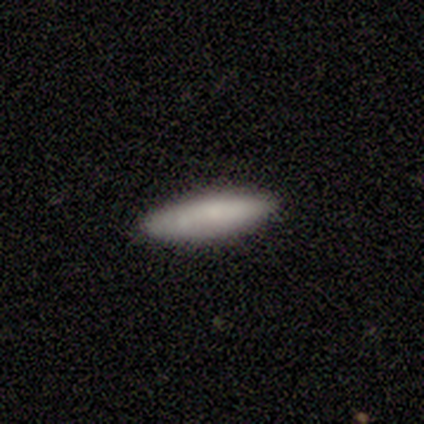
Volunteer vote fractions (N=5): smooth 80%, featured or disk 20%, star or artifact 0%. Down the decision tree: how rounded — in between (50%, tied with cigar-shaped); merging — none (100%).